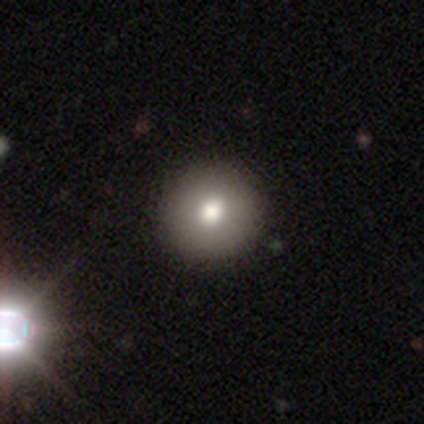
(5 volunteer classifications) Smooth or featured? 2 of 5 (40%, tied with featured or disk) said smooth. How rounded? 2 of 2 (100%) said round. Merging? 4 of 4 (100%) said none.